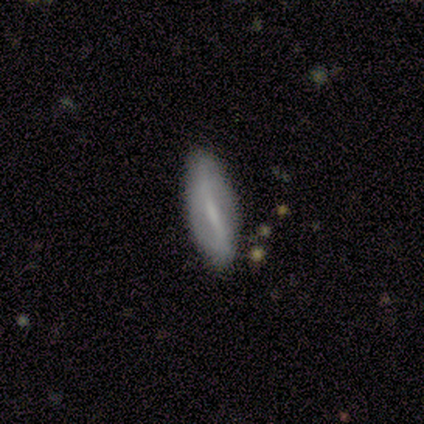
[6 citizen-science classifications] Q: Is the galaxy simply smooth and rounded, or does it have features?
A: featured or disk — 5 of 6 (83%).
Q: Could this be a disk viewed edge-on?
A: no — 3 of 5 (60%).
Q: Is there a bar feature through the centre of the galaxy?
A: weak — 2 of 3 (67%).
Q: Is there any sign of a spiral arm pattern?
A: no — 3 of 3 (100%).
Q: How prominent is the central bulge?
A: moderate — 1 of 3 (33%, tied with small and none).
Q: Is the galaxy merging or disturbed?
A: none — 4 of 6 (67%).